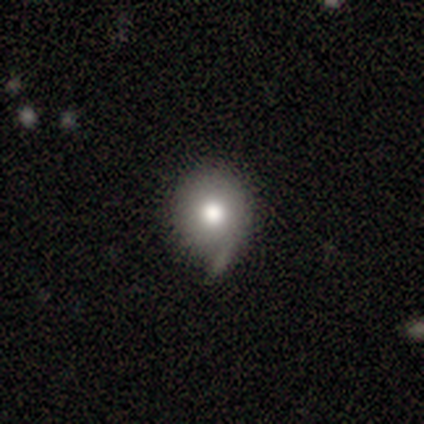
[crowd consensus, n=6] Q: Smooth or featured?
A: smooth (83%); runner-up: featured or disk (17%)
Q: How rounded?
A: round (100%)
Q: Merging?
A: none (33%); tied with: minor disturbance (33%)